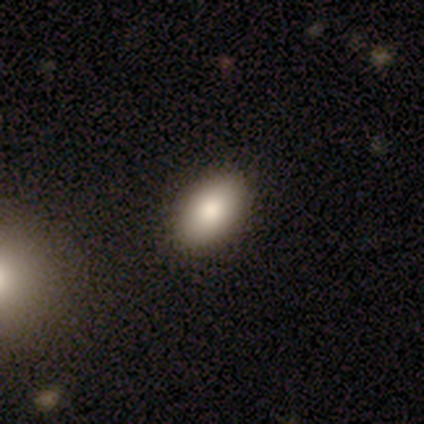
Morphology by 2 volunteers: Q: Smooth or featured?
A: smooth (50%); tied with: featured or disk (50%)
Q: How rounded?
A: in between (100%)
Q: Merging?
A: none (100%)